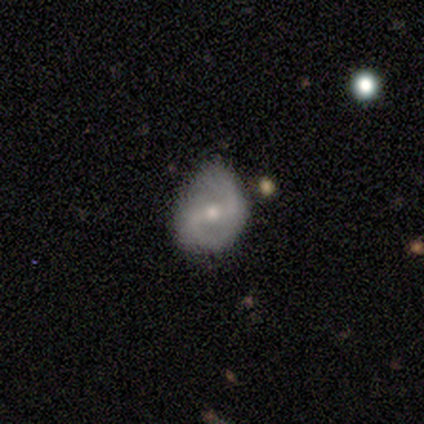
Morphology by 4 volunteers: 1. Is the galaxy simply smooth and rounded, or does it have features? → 100% featured or disk, 0% smooth, 0% star or artifact.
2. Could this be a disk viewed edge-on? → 100% no, 0% yes.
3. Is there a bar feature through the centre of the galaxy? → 50% no, 25% strong, 25% weak.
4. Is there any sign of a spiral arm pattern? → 75% yes, 25% no.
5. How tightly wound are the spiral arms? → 67% loose, 33% medium, 0% tight.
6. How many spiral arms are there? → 100% 2, 0% 1, 0% 3, 0% 4, 0% more than 4, 0% can't tell.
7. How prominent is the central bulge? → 75% moderate, 25% none, 0% dominant, 0% large, 0% small.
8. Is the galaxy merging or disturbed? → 50% none, 25% minor disturbance, 25% merger, 0% major disturbance.